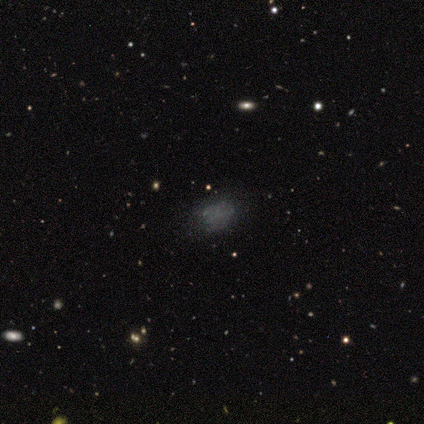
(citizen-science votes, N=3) Smooth or featured? 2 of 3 (67%) said smooth. How rounded? 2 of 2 (100%) said in between. Merging? 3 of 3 (100%) said none.